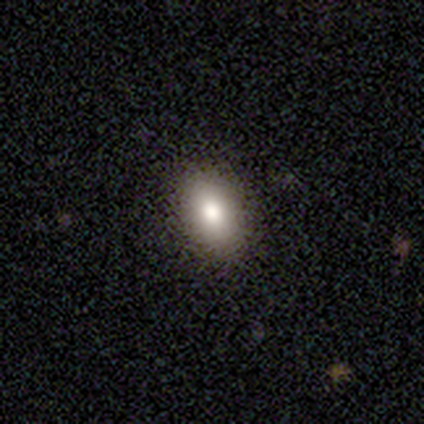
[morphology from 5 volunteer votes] Q: Smooth or featured?
A: smooth (80%); runner-up: featured or disk (20%)
Q: How rounded?
A: in between (100%)
Q: Merging?
A: none (100%)